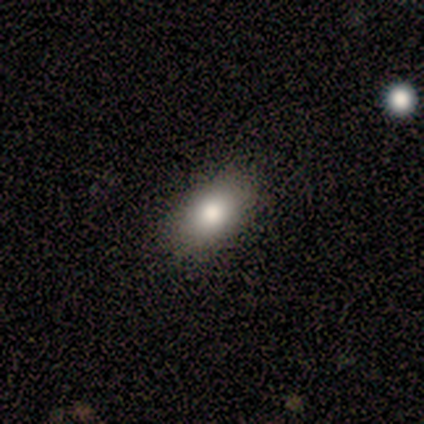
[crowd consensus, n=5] Smooth or featured?
  - smooth: 80% *
  - star or artifact: 20%
  - featured or disk: 0%
How rounded?
  - in between: 100% *
  - round: 0%
  - cigar-shaped: 0%
Merging?
  - none: 75% *
  - minor disturbance: 25%
  - major disturbance: 0%
  - merger: 0%